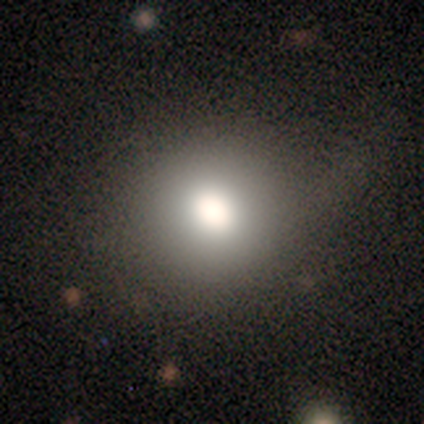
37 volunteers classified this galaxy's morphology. A smooth galaxy with no disk features (78%) that is round (100%). Merging: none (75%).